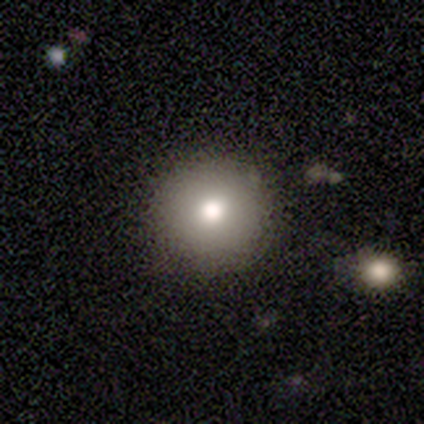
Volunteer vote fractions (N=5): Smooth or featured? 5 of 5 (100%) said smooth. How rounded? 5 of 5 (100%) said round. Merging? 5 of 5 (100%) said none.